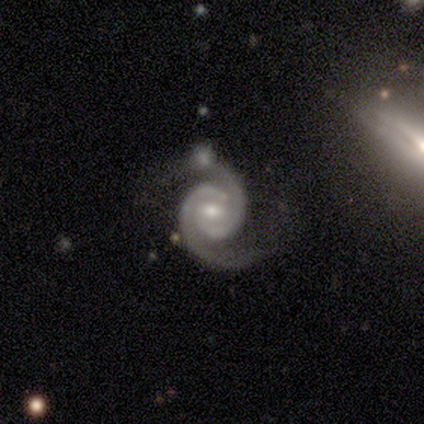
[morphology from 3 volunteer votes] Smooth or featured?
  - featured or disk: 100% *
  - smooth: 0%
  - star or artifact: 0%
Edge-on disk?
  - no: 100% *
  - yes: 0%
Bar?
  - weak: 100% *
  - strong: 0%
  - no: 0%
Spiral arms?
  - yes: 100% *
  - no: 0%
Spiral winding?
  - medium: 67% *
  - tight: 33%
  - loose: 0%
Spiral arm count?
  - 2: 100% *
  - 1: 0%
  - 3: 0%
  - 4: 0%
  - more than 4: 0%
  - can't tell: 0%
Bulge size?
  - moderate: 67% *
  - small: 33%
  - dominant: 0%
  - large: 0%
  - none: 0%
Merging?
  - none: 67% *
  - minor disturbance: 33%
  - major disturbance: 0%
  - merger: 0%